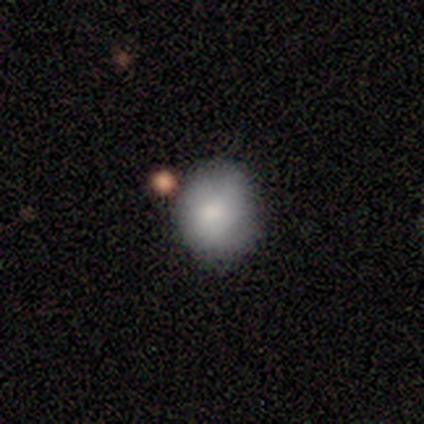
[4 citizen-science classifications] Smooth or featured? smooth (75%)
How rounded? in between (67%)
Merging? none (33%, tied with minor disturbance and merger)